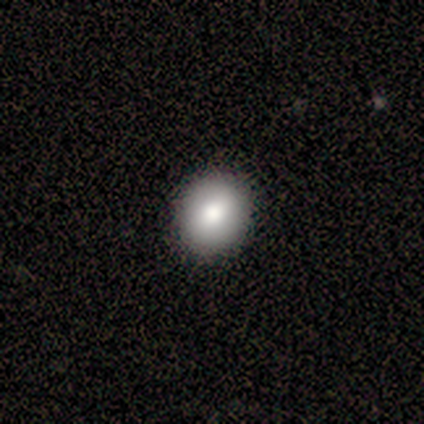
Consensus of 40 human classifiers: A smooth galaxy with no disk features (82%) that is round (64%). Merging: none (92%).